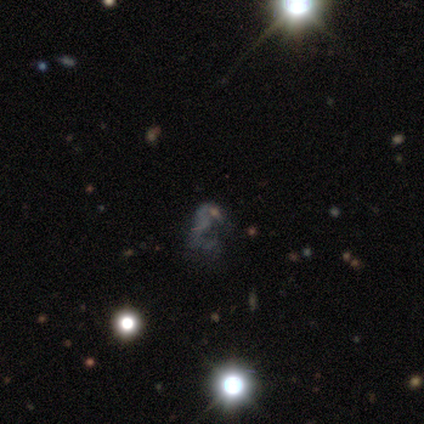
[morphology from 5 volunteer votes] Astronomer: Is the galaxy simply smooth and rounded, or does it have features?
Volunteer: star or artifact — 80%.